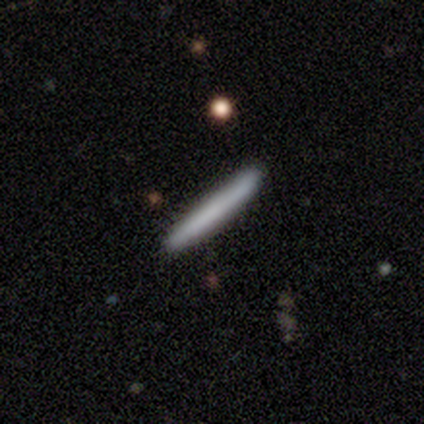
A smooth galaxy with no disk features (85%) that is cigar-shaped (97%).

Vote fractions:
- Smooth or featured? smooth: 85% / featured or disk: 13% / star or artifact: 3%
- How rounded? cigar-shaped: 97% / round: 3% / in between: 0%
- Merging? none: 92% / minor disturbance: 5% / major disturbance: 3% / merger: 0%